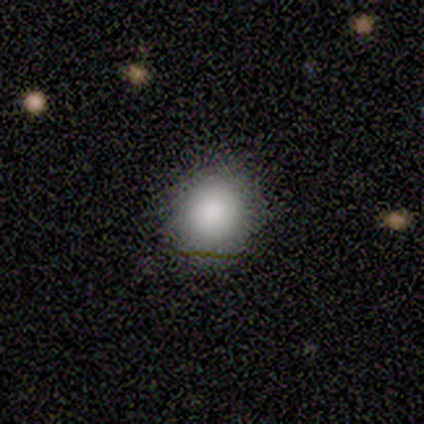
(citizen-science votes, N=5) A smooth galaxy with no disk features (100%) that is round (80%). Merging: none (80%).